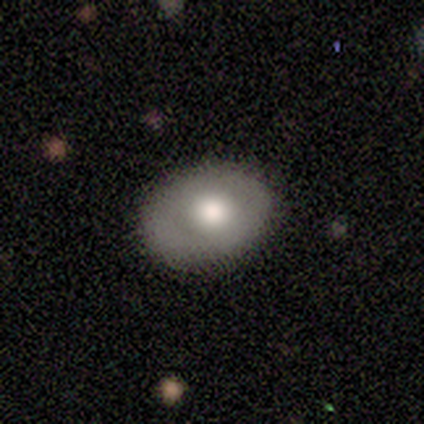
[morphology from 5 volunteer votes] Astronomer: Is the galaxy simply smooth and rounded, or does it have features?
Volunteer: smooth — 80%.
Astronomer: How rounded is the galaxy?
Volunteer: round — 50%, tied with in between at 50%.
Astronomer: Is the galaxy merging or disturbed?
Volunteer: none — 100%.